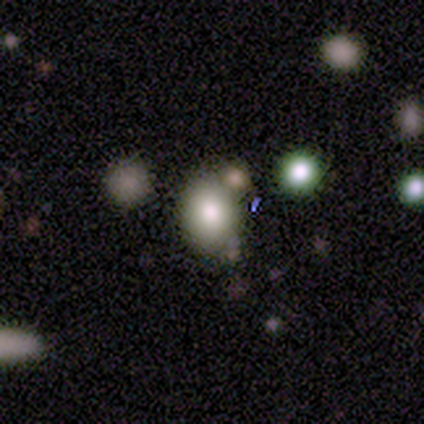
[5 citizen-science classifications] A smooth galaxy with no disk features (100%) that is in between round and cigar-shaped (60%). Merging: none (60%).